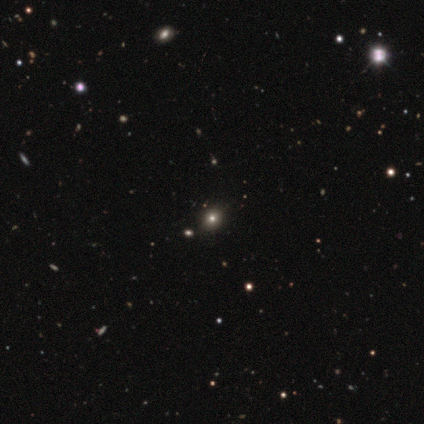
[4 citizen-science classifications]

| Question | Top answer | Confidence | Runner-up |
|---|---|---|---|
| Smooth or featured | smooth | 50% | tied: star or artifact (50%) |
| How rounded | round | 100% | — |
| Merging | none | 100% | — |